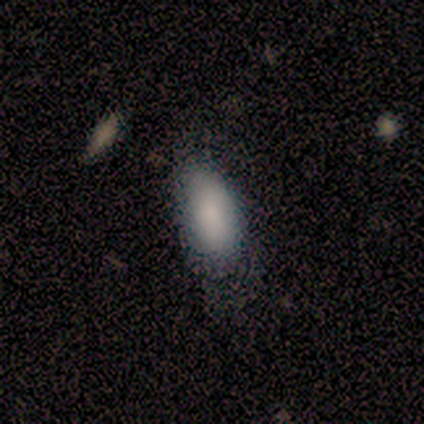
A smooth galaxy with no disk features (80%) that is in between round and cigar-shaped (100%). Merging: none (50%, tied with minor disturbance).